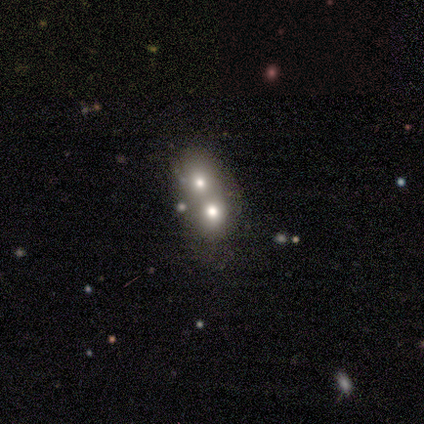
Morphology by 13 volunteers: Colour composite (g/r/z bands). It shows a smooth galaxy with no disk features (62%) that is in between round and cigar-shaped (62%). Merging: merger (100%).